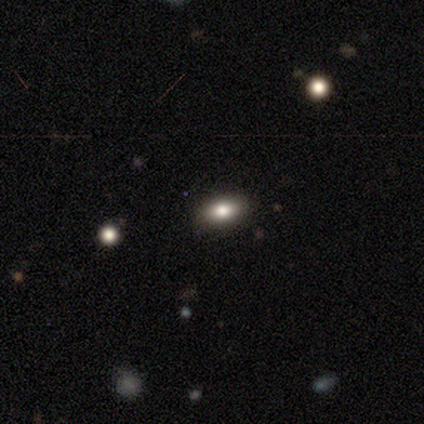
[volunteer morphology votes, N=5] A smooth galaxy with no disk features (100%) that is in between round and cigar-shaped (100%). Merging: none (100%).